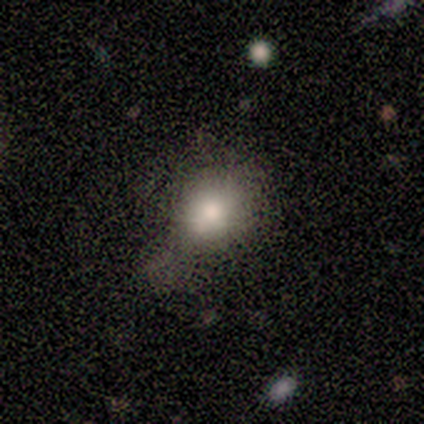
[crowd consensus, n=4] smooth_or_featured: smooth (p=0.75) [alt: star or artifact p=0.25]
how_rounded: round (p=0.67) [alt: in between p=0.33]
merging: none (p=0.33) [tied with: minor disturbance p=0.33, major disturbance p=0.33]